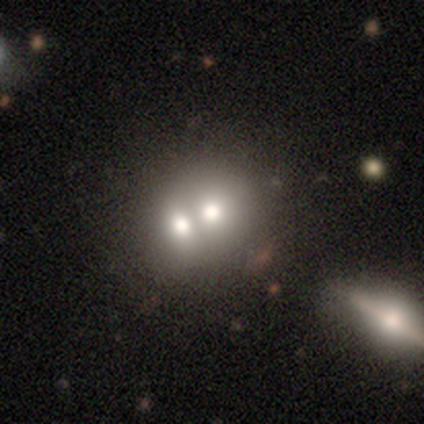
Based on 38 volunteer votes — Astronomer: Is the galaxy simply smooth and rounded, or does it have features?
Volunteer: smooth — 58%.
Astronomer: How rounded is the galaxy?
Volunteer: round — 73%.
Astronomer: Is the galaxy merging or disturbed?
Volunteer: merger — 69%.